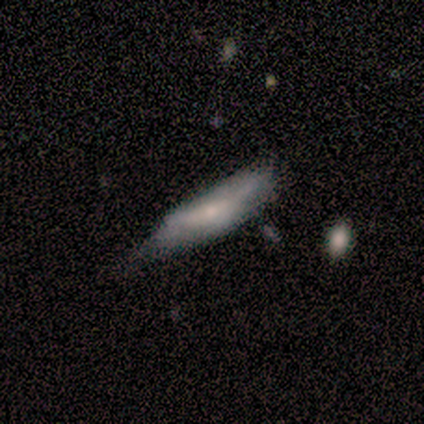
A featured or disk galaxy (80%) viewed edge-on (75%) with no central bulge (67%). Merging: minor disturbance (50%, tied with major disturbance).